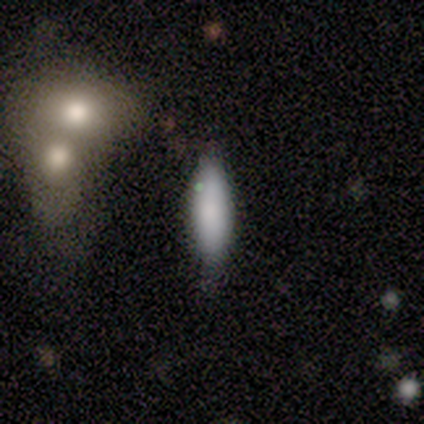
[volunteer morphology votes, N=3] Q: Smooth or featured?
A: smooth (100%)
Q: How rounded?
A: cigar-shaped (100%)
Q: Merging?
A: none (67%); runner-up: minor disturbance (33%)